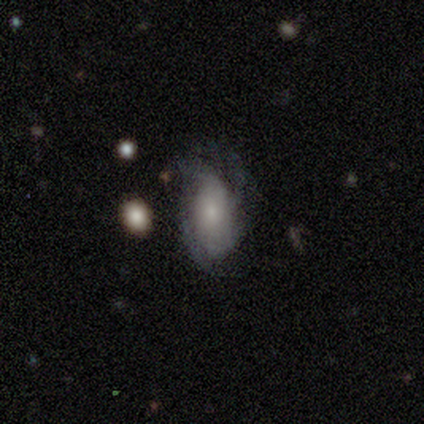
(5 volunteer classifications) Volunteers were most divided on "merging" (2-way tie): none: 40%, minor disturbance: 40%, major disturbance: 20%, merger: 0%. More confident: edge-on disk — no (100%); spiral winding — tight (100%); spiral arm count — 2 (100%); bulge size — small (100%); bar — no (67%); spiral arms — yes (67%); smooth or featured — featured or disk (60%).